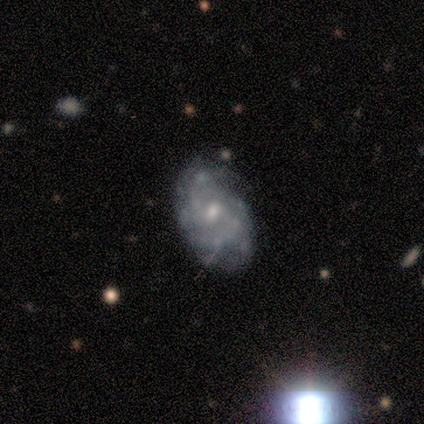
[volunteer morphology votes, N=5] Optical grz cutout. It shows a featured or disk galaxy (100%) with a weak bar (60%), tight (60%) spiral arms (100%) and a moderate central bulge (60%). Merging: none (80%).